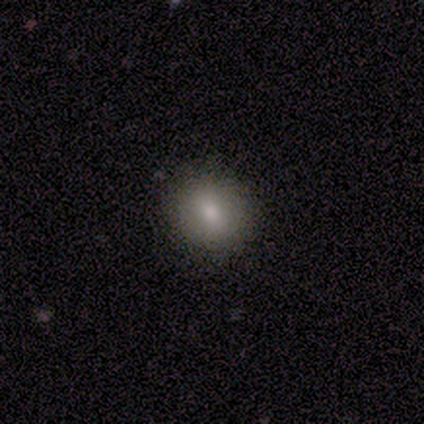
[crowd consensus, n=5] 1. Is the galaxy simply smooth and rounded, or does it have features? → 80% smooth, 20% star or artifact, 0% featured or disk.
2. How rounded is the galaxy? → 75% round, 25% in between, 0% cigar-shaped.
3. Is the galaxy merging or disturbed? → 75% none, 25% minor disturbance, 0% major disturbance, 0% merger.